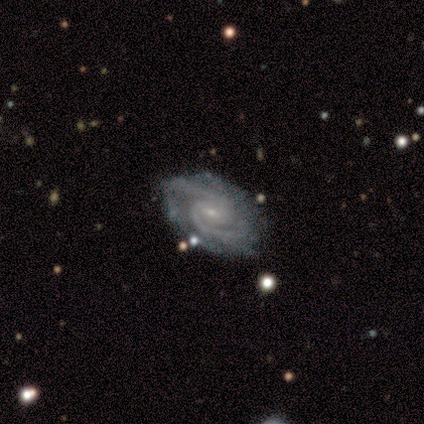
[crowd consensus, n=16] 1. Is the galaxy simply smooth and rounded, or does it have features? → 100% featured or disk, 0% smooth, 0% star or artifact.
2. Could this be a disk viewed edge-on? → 100% no, 0% yes.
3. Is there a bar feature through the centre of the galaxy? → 69% weak, 25% no, 6% strong.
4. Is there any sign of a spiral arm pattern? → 100% yes, 0% no.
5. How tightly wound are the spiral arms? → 75% tight, 25% medium, 0% loose.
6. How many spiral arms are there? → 56% 2, 19% more than 4, 12% 3, 12% can't tell, 0% 1, 0% 4.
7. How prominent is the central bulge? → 88% small, 6% moderate, 6% none, 0% dominant, 0% large.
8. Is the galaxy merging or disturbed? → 81% none, 19% minor disturbance, 0% major disturbance, 0% merger.